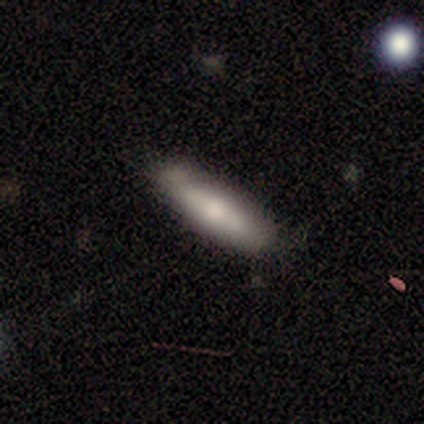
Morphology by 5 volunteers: smooth 80%, featured or disk 20%, star or artifact 0%. Down the decision tree: how rounded — cigar-shaped (75%); merging — minor disturbance (60%).